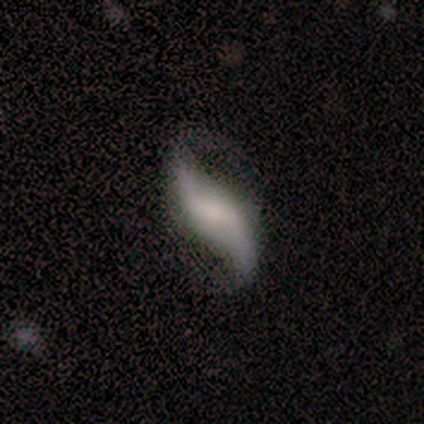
Morphology: type=featured or disk (94%); edge-on=no (97%); bar=weak (45%); spiral arms=yes (97%); winding=loose (94%); arm count=2 (96%); bulge=small (36%); merging=none (71%).